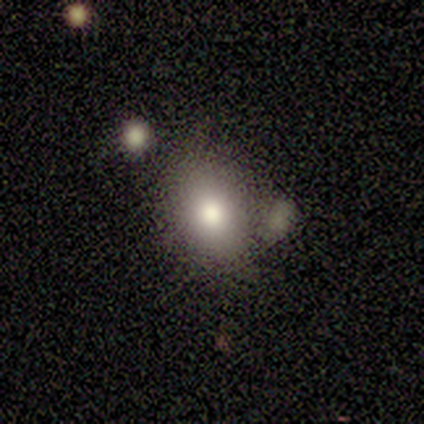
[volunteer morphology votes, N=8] Q: Smooth or featured?
A: smooth (88%); runner-up: featured or disk (12%)
Q: How rounded?
A: in between (100%)
Q: Merging?
A: minor disturbance (50%); runner-up: none (38%)